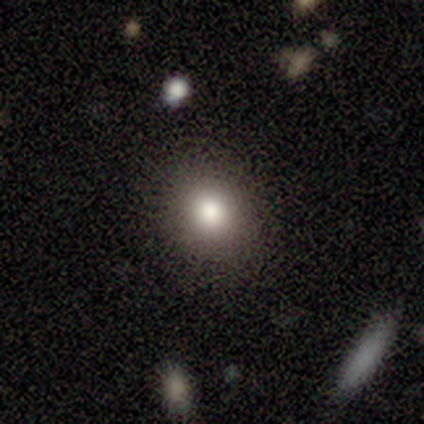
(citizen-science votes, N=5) Smooth or featured? 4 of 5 (80%) said smooth. How rounded? 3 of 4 (75%) said round. Merging? 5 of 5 (100%) said none.